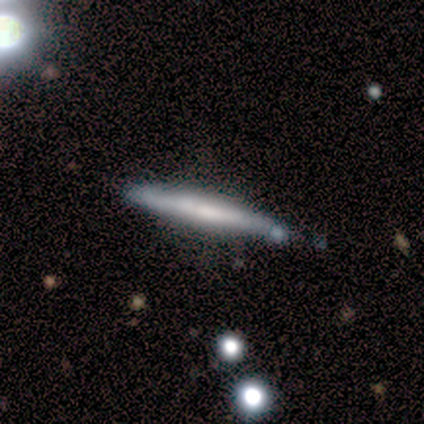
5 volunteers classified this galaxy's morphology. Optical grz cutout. It shows a smooth galaxy with no disk features (80%) that is cigar-shaped (100%). Merging: none (100%).